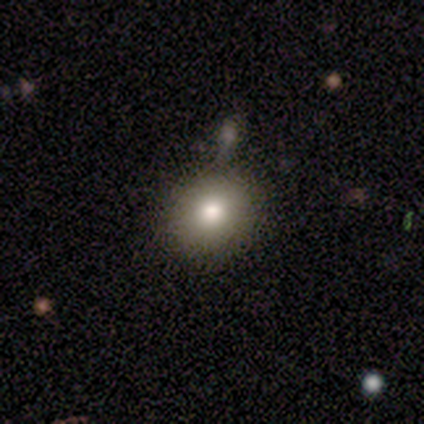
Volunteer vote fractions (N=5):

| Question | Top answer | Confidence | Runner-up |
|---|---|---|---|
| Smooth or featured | smooth | 100% | — |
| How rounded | round | 100% | — |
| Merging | none | 100% | — |